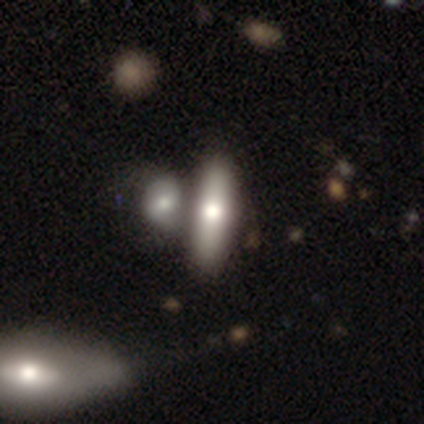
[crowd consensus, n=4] Smooth or featured?
  - smooth: 50% * (tied)
  - featured or disk: 50% * (tied)
  - star or artifact: 0%
How rounded?
  - cigar-shaped: 100% *
  - round: 0%
  - in between: 0%
Merging?
  - none: 75% *
  - merger: 25%
  - minor disturbance: 0%
  - major disturbance: 0%